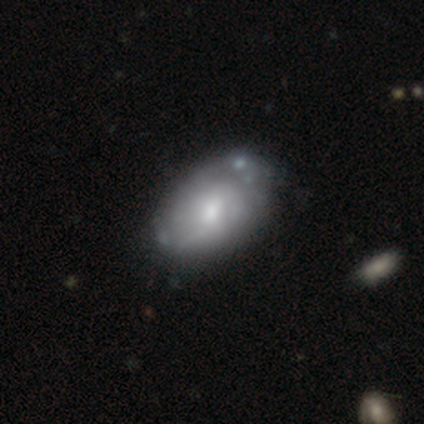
Volunteers were most divided on "bar": no: 54%, weak: 38%, strong: 8%. Remaining: edge-on disk — no (100%); spiral arms — yes (71%); bulge size — moderate (71%); smooth or featured — featured or disk (63%); spiral arm count — can't tell (59%); spiral winding — tight (53%); merging — none (46%).